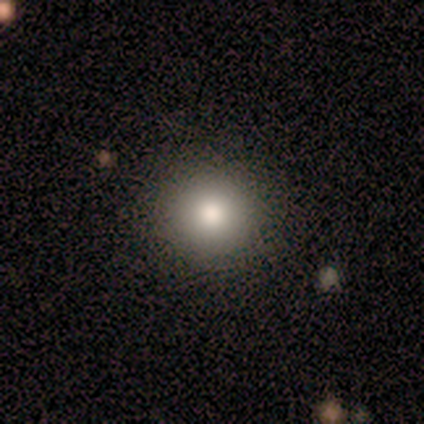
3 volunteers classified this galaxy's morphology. smooth_or_featured: smooth (p=1.00)
how_rounded: round (p=1.00)
merging: none (p=1.00)